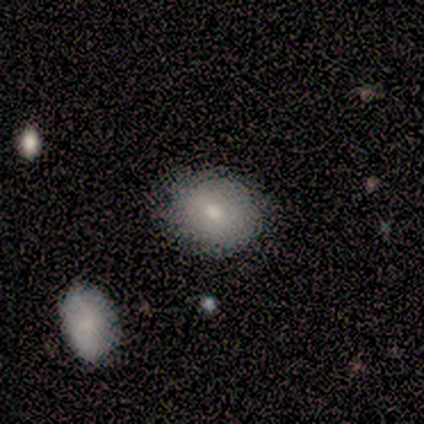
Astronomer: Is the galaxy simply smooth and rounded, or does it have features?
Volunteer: smooth — 80%.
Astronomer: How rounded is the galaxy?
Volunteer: round — 50%, tied with in between at 50%.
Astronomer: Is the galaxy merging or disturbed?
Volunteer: none — 80%.